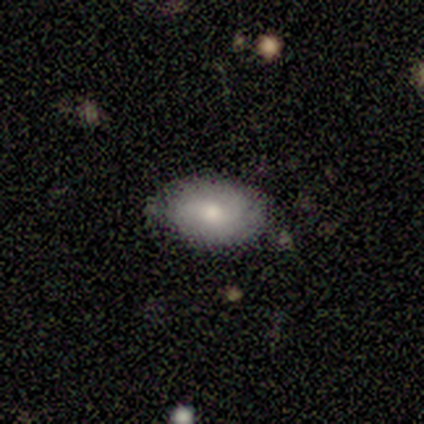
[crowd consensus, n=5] Overall: smooth (100%). How rounded: in between (100%). Merging: none (100%).